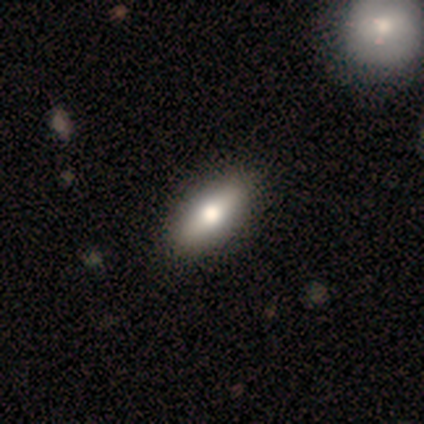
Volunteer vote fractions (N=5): smooth-or-featured: smooth: 60% | featured or disk: 20% | star or artifact: 20%
  how-rounded: cigar-shaped: 67% | in between: 33% | round: 0%
  merging: none: 100% | minor disturbance: 0% | major disturbance: 0% | merger: 0%